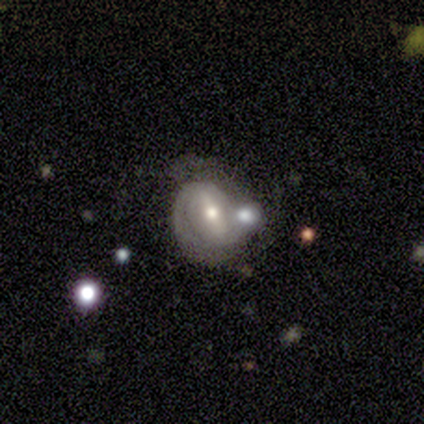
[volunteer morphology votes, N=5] smooth_or_featured: featured or disk (p=0.80) [alt: smooth p=0.20]
disk_edge_on: no (p=1.00)
bar: weak (p=0.50) [alt: strong p=0.25]
has_spiral_arms: yes (p=0.75) [alt: no p=0.25]
spiral_winding: tight (p=0.67) [alt: loose p=0.33]
spiral_arm_count: 2 (p=1.00)
bulge_size: moderate (p=0.75) [alt: small p=0.25]
merging: merger (p=0.40) [alt: none p=0.20]